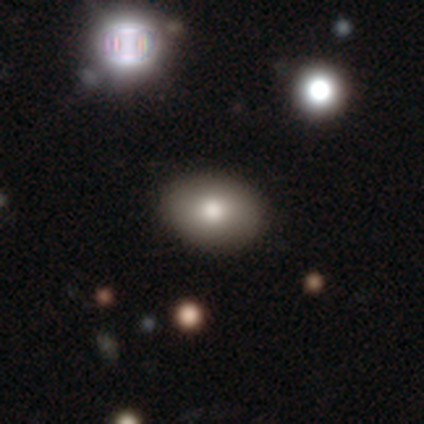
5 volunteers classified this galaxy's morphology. Smooth or featured?
  - smooth: 40% * (tied)
  - star or artifact: 40% * (tied)
  - featured or disk: 20%
How rounded?
  - in between: 100% *
  - round: 0%
  - cigar-shaped: 0%
Merging?
  - none: 100% *
  - minor disturbance: 0%
  - major disturbance: 0%
  - merger: 0%